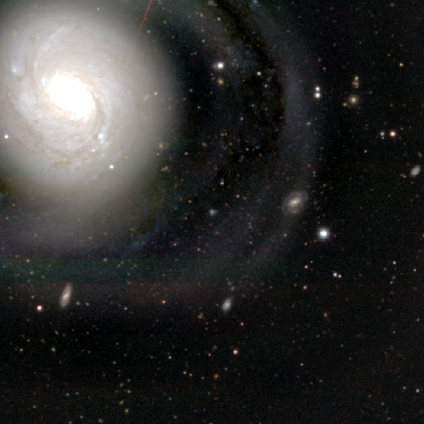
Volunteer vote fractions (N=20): A featured or disk galaxy (65%) with no bar (50%), tight (45%) spiral arms (92%) and a large central bulge (75%). Merging: none (47%).